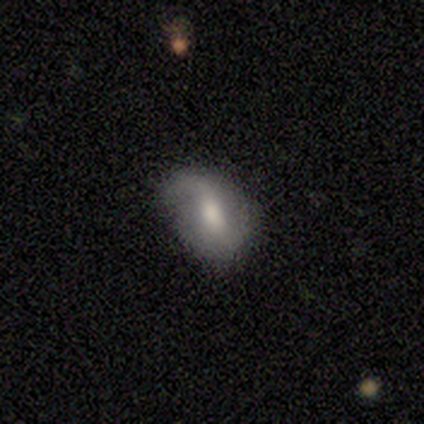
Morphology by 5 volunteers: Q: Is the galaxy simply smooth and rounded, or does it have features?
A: smooth — 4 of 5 (80%).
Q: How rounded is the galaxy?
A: in between — 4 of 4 (100%).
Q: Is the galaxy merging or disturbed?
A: minor disturbance — 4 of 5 (80%).